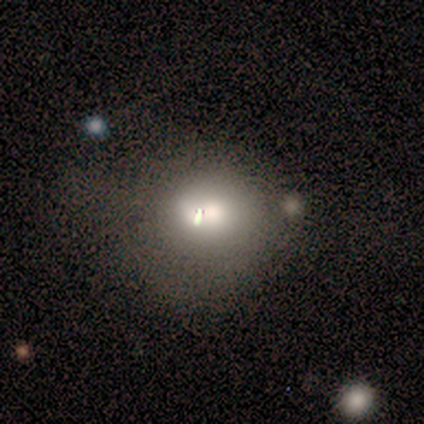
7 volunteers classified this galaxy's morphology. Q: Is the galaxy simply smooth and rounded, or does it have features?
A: smooth — 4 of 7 (57%).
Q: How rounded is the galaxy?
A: round — 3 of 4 (75%).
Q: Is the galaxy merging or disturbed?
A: none — 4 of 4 (100%).